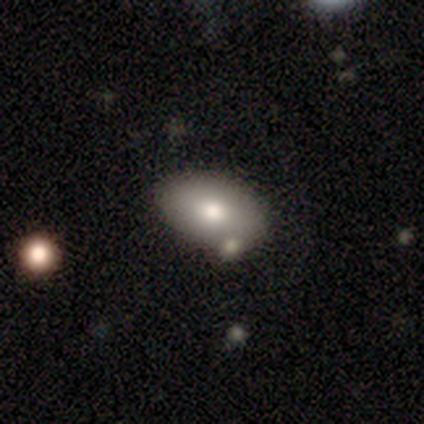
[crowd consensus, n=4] A smooth galaxy with no disk features (75%) that is in between round and cigar-shaped (100%). Merging: none (100%).